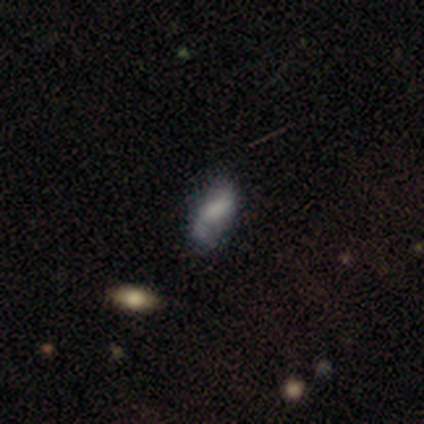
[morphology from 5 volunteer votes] Q: Smooth or featured?
A: smooth (60%); runner-up: featured or disk (40%)
Q: How rounded?
A: in between (100%)
Q: Merging?
A: minor disturbance (40%); tied with: merger (40%)